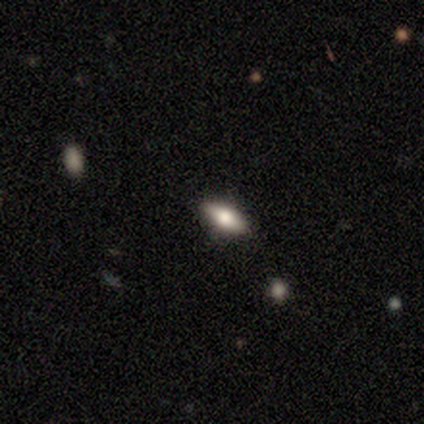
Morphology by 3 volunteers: Volunteers were most divided on "smooth or featured": smooth: 67%, featured or disk: 33%, star or artifact: 0%. More confident: how rounded — in between (100%); merging — none (100%).